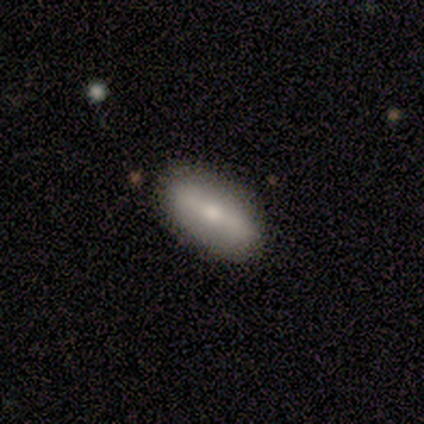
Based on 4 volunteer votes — Smooth or featured?
  - smooth: 50% * (tied)
  - featured or disk: 50% * (tied)
  - star or artifact: 0%
How rounded?
  - in between: 100% *
  - round: 0%
  - cigar-shaped: 0%
Merging?
  - none: 100% *
  - minor disturbance: 0%
  - major disturbance: 0%
  - merger: 0%